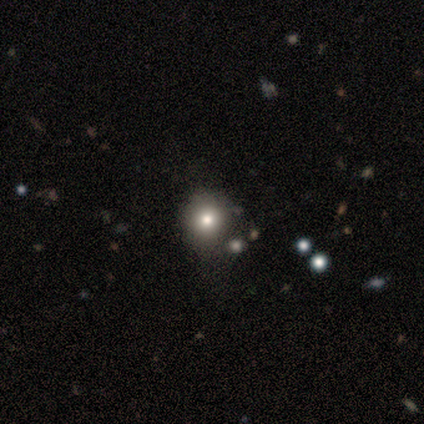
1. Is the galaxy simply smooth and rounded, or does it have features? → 100% smooth, 0% featured or disk, 0% star or artifact.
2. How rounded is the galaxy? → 80% round, 20% in between, 0% cigar-shaped.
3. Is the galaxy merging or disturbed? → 80% none, 20% merger, 0% minor disturbance, 0% major disturbance.